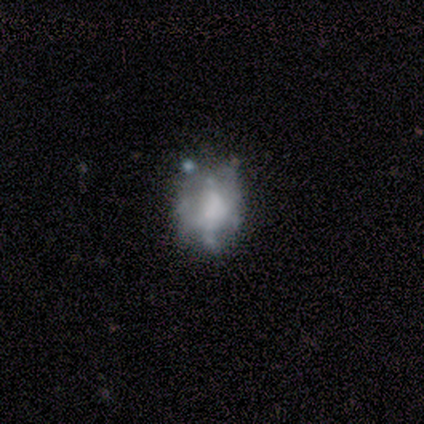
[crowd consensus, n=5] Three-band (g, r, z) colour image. It shows a smooth galaxy with no disk features (40%, tied with star or artifact) that is round (100%). Merging: none (67%).